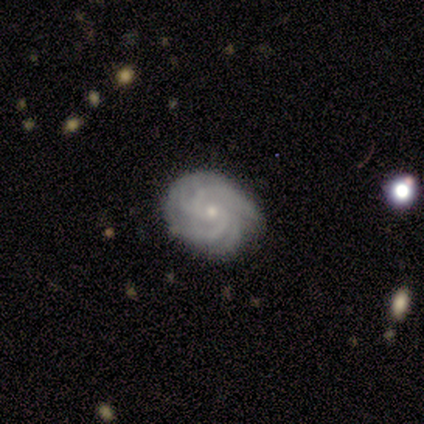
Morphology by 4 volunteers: A featured or disk galaxy (75%) with no bar (67%), 2 (33%, tied with 4 and can't tell) tight (67%) spiral arms (100%) and a small central bulge (67%). Merging: none (50%, tied with minor disturbance).